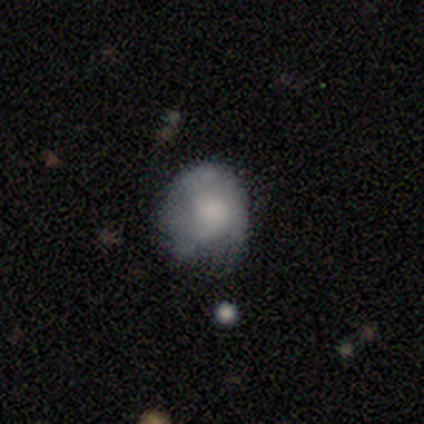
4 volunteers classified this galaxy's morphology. This appears to be a smooth galaxy with no disk features (75%) that is round (67%). Merging: none (50%, tied with minor disturbance).